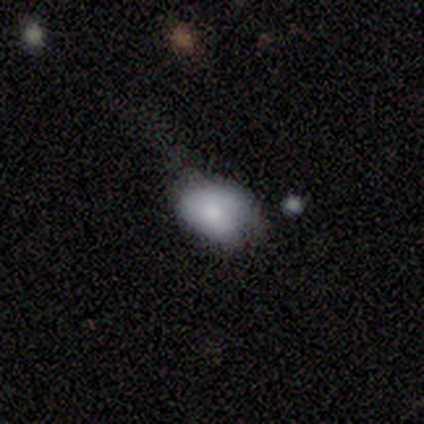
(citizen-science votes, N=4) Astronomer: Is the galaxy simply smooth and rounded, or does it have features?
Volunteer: smooth — 100%.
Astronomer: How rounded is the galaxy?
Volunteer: in between — 100%.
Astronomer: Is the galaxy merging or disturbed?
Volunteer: major disturbance — 50%.